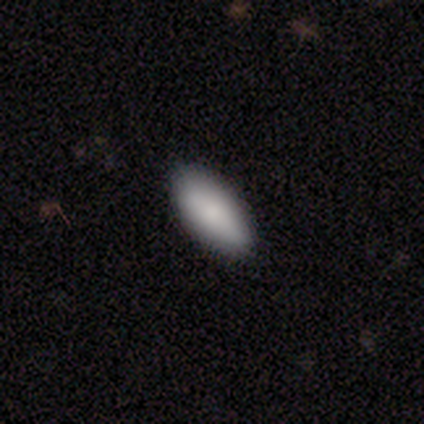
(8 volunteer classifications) Q: Smooth or featured?
A: smooth (75%); runner-up: featured or disk (12%)
Q: How rounded?
A: in between (100%)
Q: Merging?
A: none (100%)